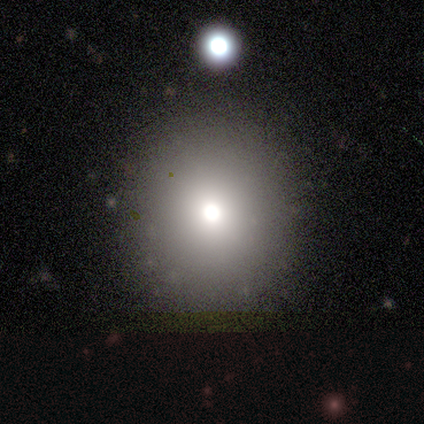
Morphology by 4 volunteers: type=smooth (50%, tied with star or artifact); roundness=round (50%, tied with in between); merging=none (100%).